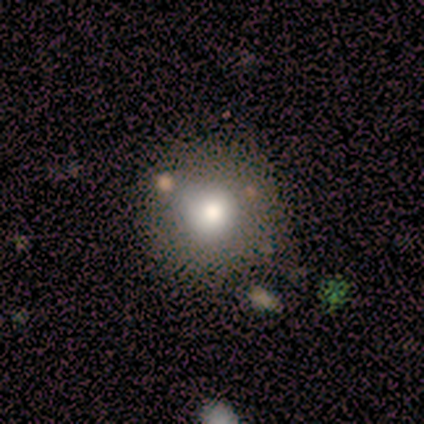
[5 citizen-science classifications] smooth 60%, star or artifact 40%, featured or disk 0%. Down the decision tree: how rounded — round (100%); merging — minor disturbance (67%).